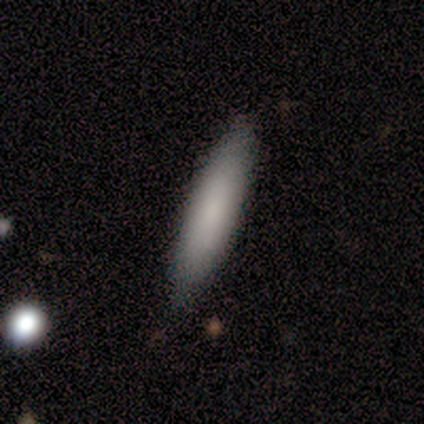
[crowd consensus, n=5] Smooth or featured: smooth — 100%
How rounded: cigar-shaped — 80% (in between — 20%)
Merging: none — 100%